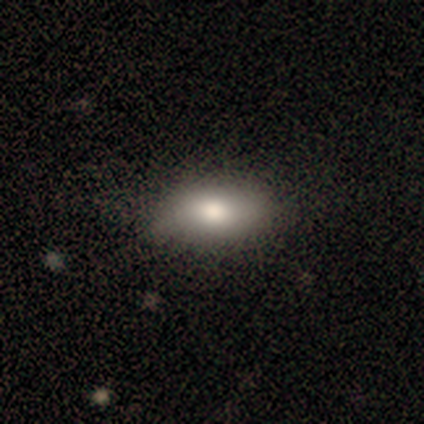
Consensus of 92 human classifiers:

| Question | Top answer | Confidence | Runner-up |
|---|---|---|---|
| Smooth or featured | smooth | 83% | featured or disk (10%) |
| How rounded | in between | 88% | cigar-shaped (8%) |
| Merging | none | 81% | minor disturbance (16%) |